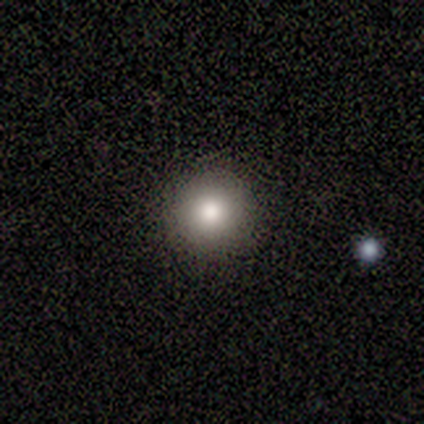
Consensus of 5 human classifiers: Smooth or featured?
  - smooth: 80% *
  - star or artifact: 20%
  - featured or disk: 0%
How rounded?
  - round: 75% *
  - in between: 25%
  - cigar-shaped: 0%
Merging?
  - none: 100% *
  - minor disturbance: 0%
  - major disturbance: 0%
  - merger: 0%